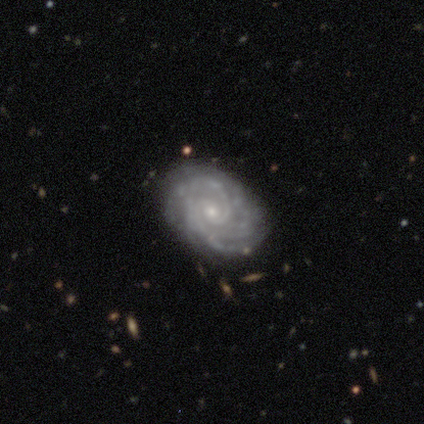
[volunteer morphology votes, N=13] A featured or disk galaxy (100%) with no bar (83%), 2 (27%, tied with 3 and can't tell) tight (64%) spiral arms (92%) and a small central bulge (100%).

Vote fractions:
- Smooth or featured? featured or disk: 100% / smooth: 0% / star or artifact: 0%
- Edge-on disk? no: 92% / yes: 8%
- Bar? no: 83% / strong: 8% / weak: 8%
- Spiral arms? yes: 92% / no: 8%
- Spiral winding? tight: 64% / medium: 27% / loose: 9%
- Spiral arm count? 2: 27% (tied) / 3: 27% (tied) / can't tell: 27% (tied) / 1: 9% / more than 4: 9% / 4: 0%
- Bulge size? small: 100% / dominant: 0% / large: 0% / moderate: 0% / none: 0%
- Merging? none: 69% / minor disturbance: 31% / major disturbance: 0% / merger: 0%